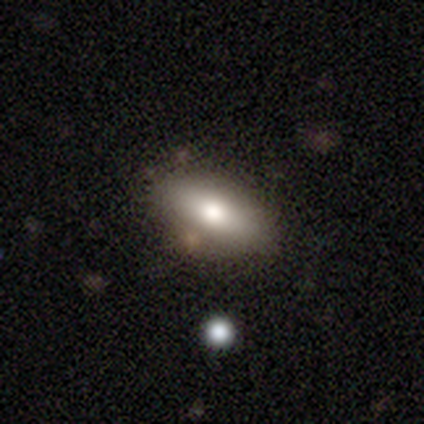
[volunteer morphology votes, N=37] smooth 57%, featured or disk 30%, star or artifact 14%. Down the decision tree: how rounded — in between (90%); merging — none (59%).